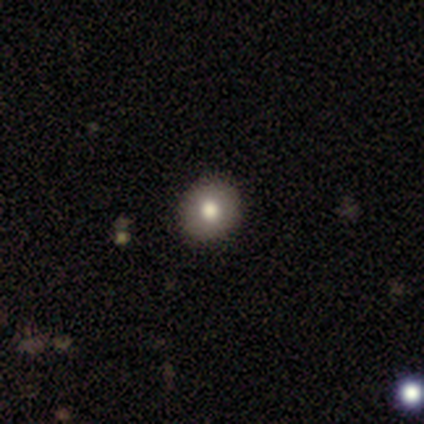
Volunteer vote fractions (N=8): A smooth galaxy with no disk features (88%) that is round (71%). Merging: none (86%).